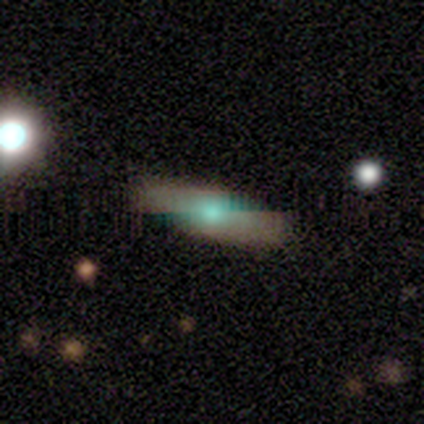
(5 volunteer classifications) smooth-or-featured: smooth: 60% | featured or disk: 40% | star or artifact: 0%
  how-rounded: in between: 67% | cigar-shaped: 33% | round: 0%
  merging: none: 80% | minor disturbance: 20% | major disturbance: 0% | merger: 0%